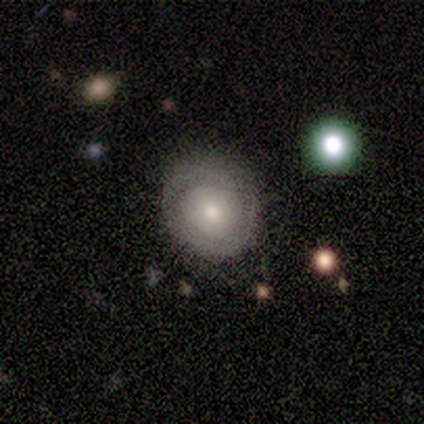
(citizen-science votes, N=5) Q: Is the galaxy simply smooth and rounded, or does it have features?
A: featured or disk — 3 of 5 (60%).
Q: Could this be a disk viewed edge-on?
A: no — 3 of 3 (100%).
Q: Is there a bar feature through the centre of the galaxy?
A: no — 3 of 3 (100%).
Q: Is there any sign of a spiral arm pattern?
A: yes — 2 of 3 (67%).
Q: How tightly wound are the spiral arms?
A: tight — 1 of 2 (50%, tied with loose).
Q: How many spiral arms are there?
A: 2 — 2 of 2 (100%).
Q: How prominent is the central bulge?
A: moderate — 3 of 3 (100%).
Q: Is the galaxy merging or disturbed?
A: none — 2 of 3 (67%).